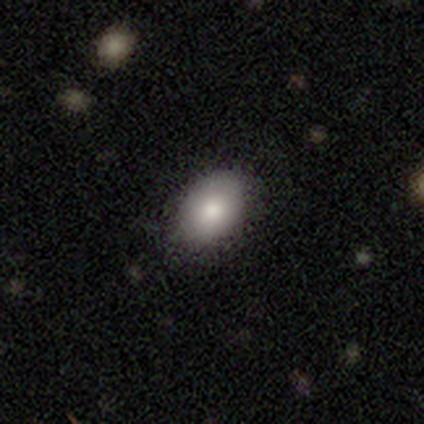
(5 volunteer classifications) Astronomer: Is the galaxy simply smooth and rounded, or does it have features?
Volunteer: smooth — 100%.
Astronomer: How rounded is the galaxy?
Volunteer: in between — 100%.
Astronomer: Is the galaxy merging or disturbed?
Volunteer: none — 60% (runner-up: minor disturbance, 40%).